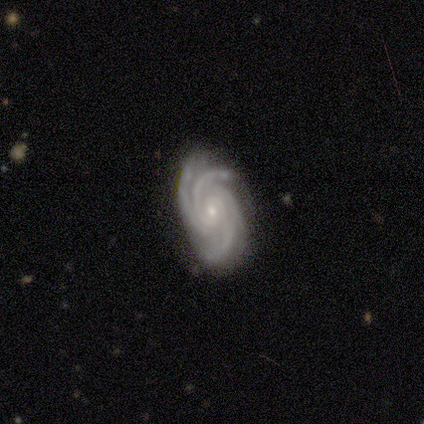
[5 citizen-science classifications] smooth-or-featured: featured or disk: 80% | star or artifact: 20% | smooth: 0%
  disk-edge-on: no: 100% | yes: 0%
    bar: weak: 50% (tied) | no: 50% (tied) | strong: 0%
    has-spiral-arms: yes: 100% | no: 0%
      spiral-winding: tight: 100% | medium: 0% | loose: 0%
      spiral-arm-count: 3: 75% | 2: 25% | 1: 0% | 4: 0% | more than 4: 0% | can't tell: 0%
    bulge-size: moderate: 50% (tied) | small: 50% (tied) | dominant: 0% | large: 0% | none: 0%
  merging: none: 100% | minor disturbance: 0% | major disturbance: 0% | merger: 0%